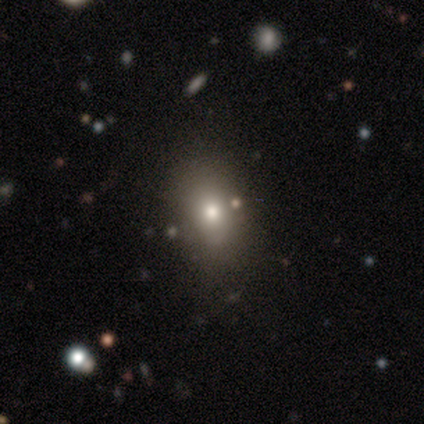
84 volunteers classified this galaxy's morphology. A smooth galaxy with no disk features (65%) that is in between round and cigar-shaped (71%). Merging: none (82%).